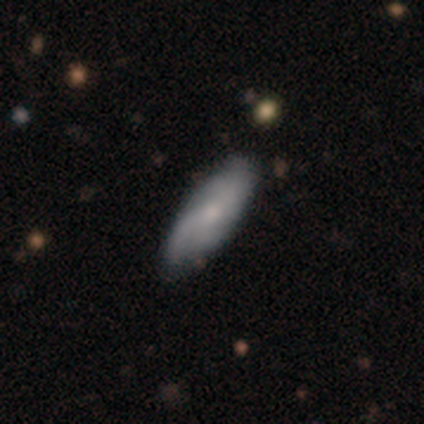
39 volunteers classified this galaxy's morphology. This appears to be a featured or disk galaxy (54%) with no bar (75%), 2 (50%) loose (50%) spiral arms (80%) and a moderate central bulge (40%, tied with small). Merging: none (53%).